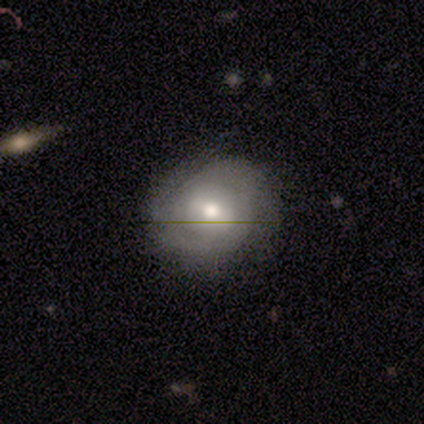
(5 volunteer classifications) Volunteers were most divided on "smooth or featured" (2-way tie): smooth: 40%, featured or disk: 40%, star or artifact: 20%; "merging" (2-way tie): none: 50%, minor disturbance: 50%, major disturbance: 0%, merger: 0%. More confident: how rounded — round (100%).